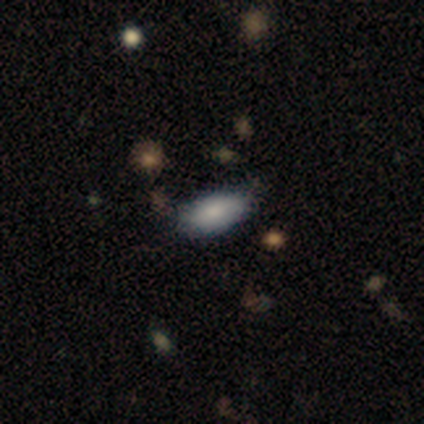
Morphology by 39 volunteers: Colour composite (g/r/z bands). It shows a smooth galaxy with no disk features (85%) that is in between round and cigar-shaped (100%). Merging: none (72%).